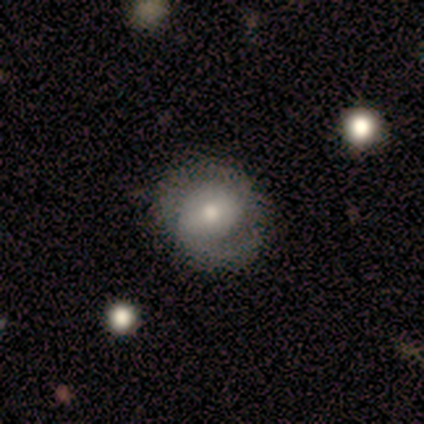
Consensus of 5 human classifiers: smooth-or-featured: smooth: 40% (tied) | featured or disk: 40% (tied) | star or artifact: 20%
  how-rounded: round: 100% | in between: 0% | cigar-shaped: 0%
  merging: none: 50% | minor disturbance: 25% | major disturbance: 25% | merger: 0%